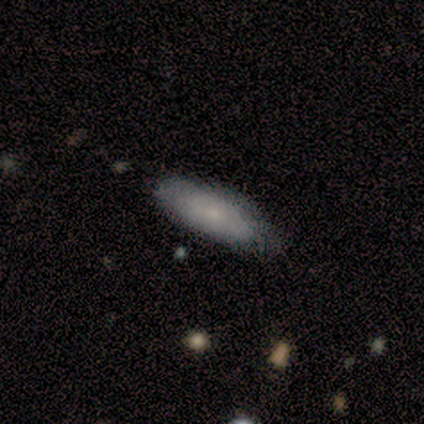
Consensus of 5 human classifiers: Smooth or featured?
  - smooth: 80% *
  - featured or disk: 20%
  - star or artifact: 0%
How rounded?
  - in between: 75% *
  - cigar-shaped: 25%
  - round: 0%
Merging?
  - none: 60% *
  - minor disturbance: 40%
  - major disturbance: 0%
  - merger: 0%